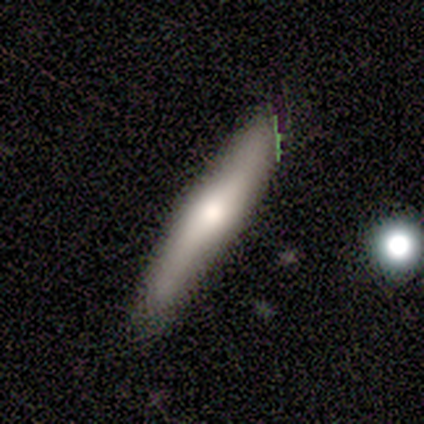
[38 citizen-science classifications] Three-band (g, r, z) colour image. It shows a smooth galaxy with no disk features (45%, tied with featured or disk) that is cigar-shaped (100%). Merging: none (76%).